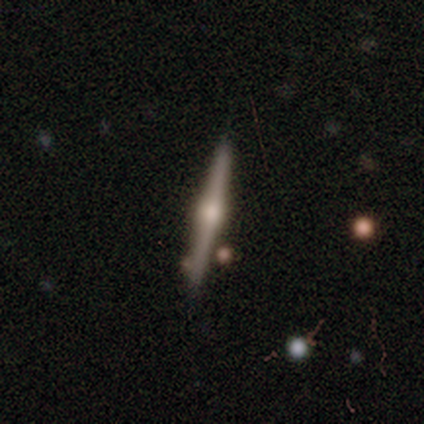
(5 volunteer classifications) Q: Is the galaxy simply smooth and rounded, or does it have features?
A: featured or disk — 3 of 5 (60%).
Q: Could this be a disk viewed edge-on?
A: yes — 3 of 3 (100%).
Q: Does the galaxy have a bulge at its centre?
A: rounded — 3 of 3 (100%).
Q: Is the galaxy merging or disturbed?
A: none — 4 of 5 (80%).